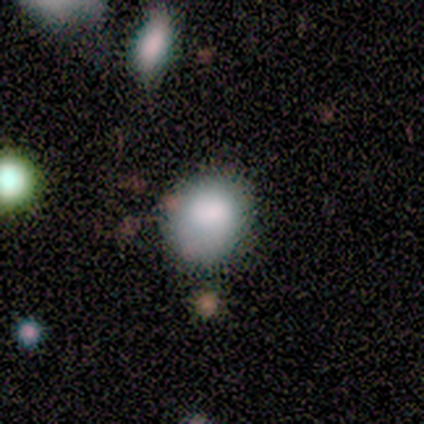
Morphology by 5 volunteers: Smooth or featured? 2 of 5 (40%, tied with featured or disk) said smooth. How rounded? 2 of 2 (100%) said round. Merging? 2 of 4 (50%) said major disturbance.